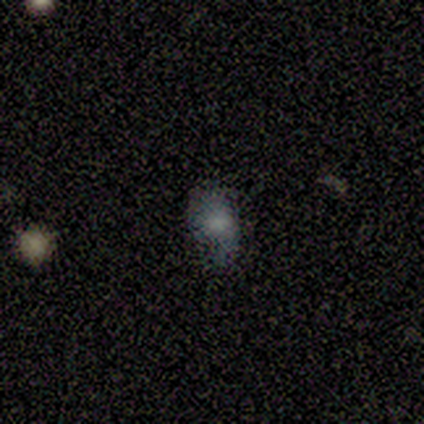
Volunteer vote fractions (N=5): Morphology: type=smooth (60%); roundness=in between (100%); merging=none (100%).